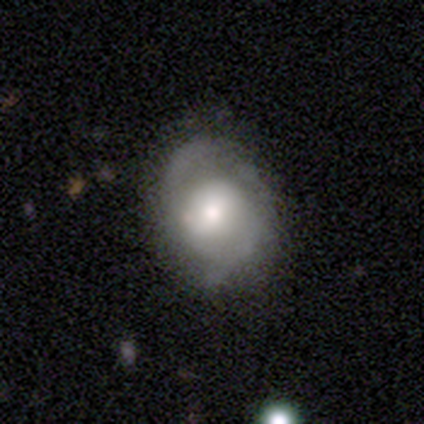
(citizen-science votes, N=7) A featured or disk galaxy (86%) with no bar (50%), 2 (100%) medium (50%) spiral arms (100%) and a moderate central bulge (67%).

Vote fractions:
- Smooth or featured? featured or disk: 86% / smooth: 14% / star or artifact: 0%
- Edge-on disk? no: 100% / yes: 0%
- Bar? no: 50% / weak: 33% / strong: 17%
- Spiral arms? yes: 100% / no: 0%
- Spiral winding? medium: 50% / tight: 33% / loose: 17%
- Spiral arm count? 2: 100% / 1: 0% / 3: 0% / 4: 0% / more than 4: 0% / can't tell: 0%
- Bulge size? moderate: 67% / large: 33% / dominant: 0% / small: 0% / none: 0%
- Merging? none: 57% / minor disturbance: 43% / major disturbance: 0% / merger: 0%